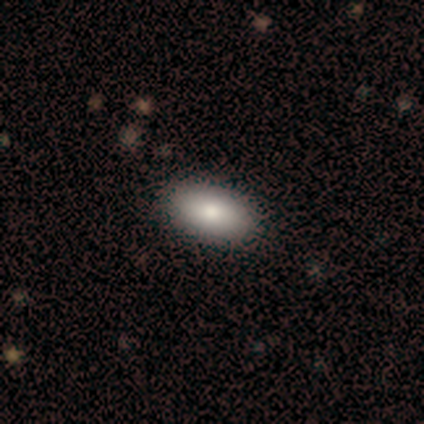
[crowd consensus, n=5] Smooth or featured?
  - smooth: 60% *
  - star or artifact: 40%
  - featured or disk: 0%
How rounded?
  - in between: 100% *
  - round: 0%
  - cigar-shaped: 0%
Merging?
  - none: 100% *
  - minor disturbance: 0%
  - major disturbance: 0%
  - merger: 0%